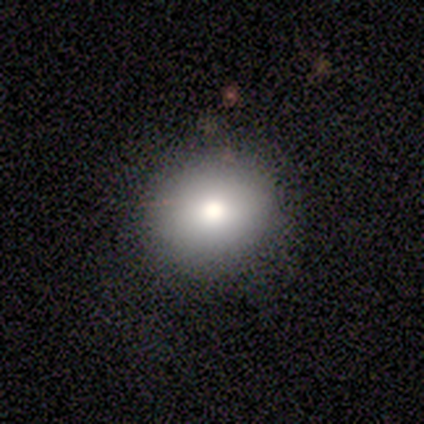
Overall: smooth (75%). How rounded: round (100%). Merging: none (100%).